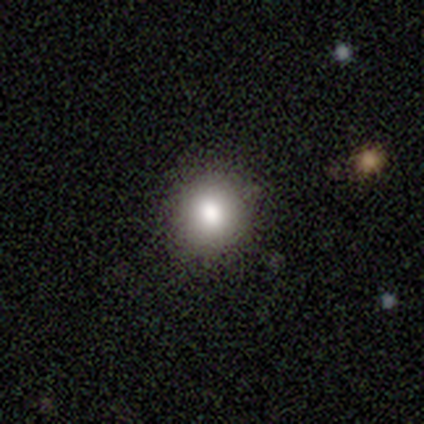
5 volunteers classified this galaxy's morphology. smooth-or-featured: smooth: 80% | star or artifact: 20% | featured or disk: 0%
  how-rounded: round: 100% | in between: 0% | cigar-shaped: 0%
  merging: none: 100% | minor disturbance: 0% | major disturbance: 0% | merger: 0%